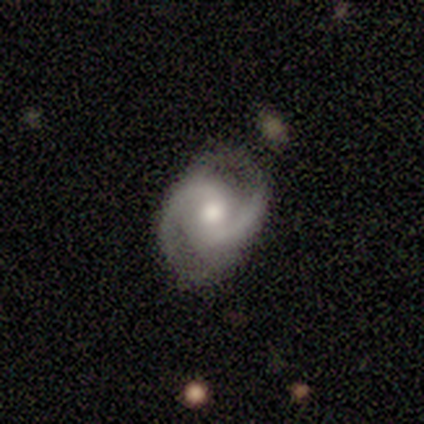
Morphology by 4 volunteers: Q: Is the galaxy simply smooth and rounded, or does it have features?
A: featured or disk — 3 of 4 (75%).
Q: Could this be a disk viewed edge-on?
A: no — 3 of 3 (100%).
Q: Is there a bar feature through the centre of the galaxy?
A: no — 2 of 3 (67%).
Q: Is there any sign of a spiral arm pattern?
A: yes — 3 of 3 (100%).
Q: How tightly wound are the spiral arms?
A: medium — 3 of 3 (100%).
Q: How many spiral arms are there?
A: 2 — 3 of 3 (100%).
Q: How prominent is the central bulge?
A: moderate — 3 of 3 (100%).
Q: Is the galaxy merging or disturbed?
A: none — 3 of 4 (75%).